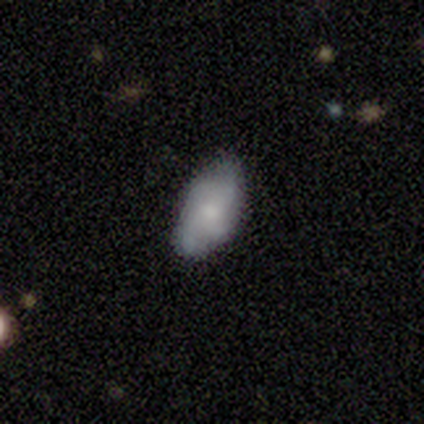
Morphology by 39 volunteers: This is likely a smooth galaxy (62%). How rounded: clearly in between (96%). Merging: likely none (68%).